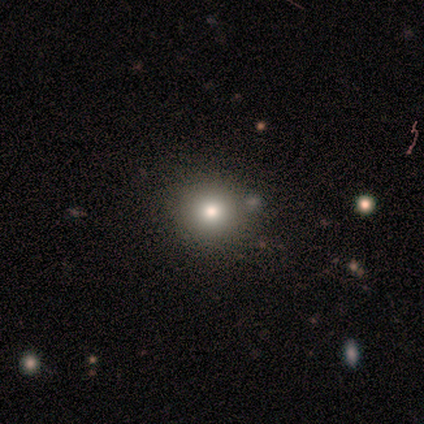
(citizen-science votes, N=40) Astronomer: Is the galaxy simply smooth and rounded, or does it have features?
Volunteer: smooth — 68%.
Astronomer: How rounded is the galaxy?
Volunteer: round — 93%.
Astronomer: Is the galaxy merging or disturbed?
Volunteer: none — 91%.